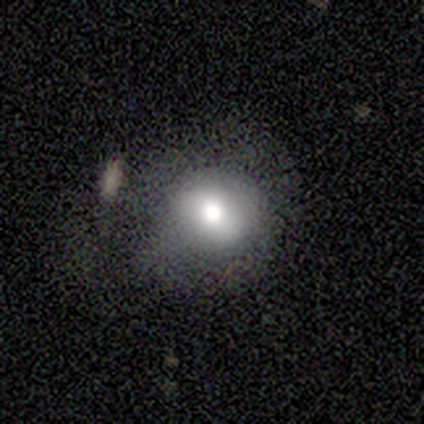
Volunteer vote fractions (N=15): A smooth galaxy with no disk features (93%) that is round (86%). Merging: minor disturbance (50%).